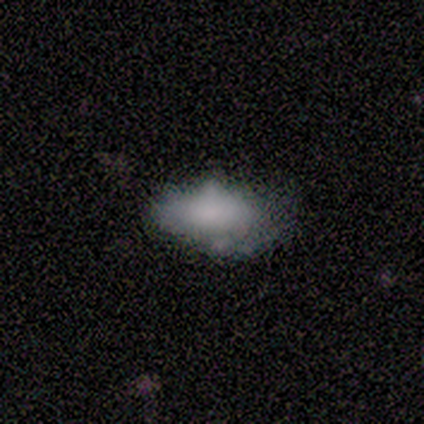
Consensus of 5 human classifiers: Morphology: type=smooth (60%); roundness=in between (100%); merging=none (50%).